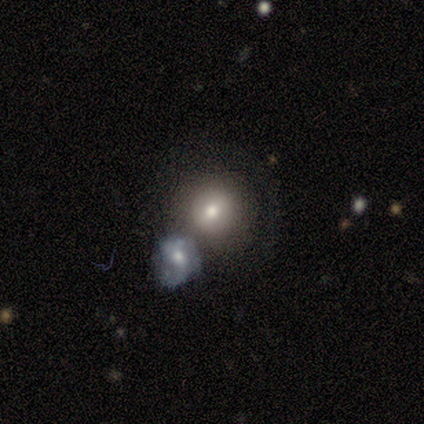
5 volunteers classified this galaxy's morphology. type=featured or disk (60%); edge-on=no (100%); bar=no (67%); spiral arms=no (100%); bulge=moderate (67%); merging=none (40%, tied with merger).